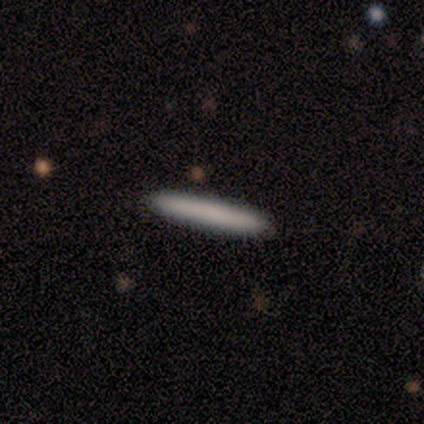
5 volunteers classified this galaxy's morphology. A smooth galaxy with no disk features (100%) that is cigar-shaped (100%). Merging: none (100%).